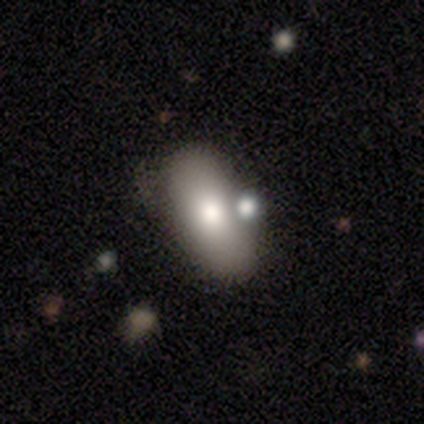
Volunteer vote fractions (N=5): smooth 80%, featured or disk 20%, star or artifact 0%. Down the decision tree: how rounded — in between (75%); merging — none (80%).